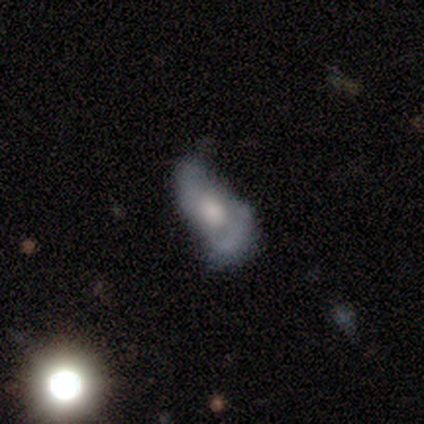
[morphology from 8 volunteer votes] Overall: featured or disk (62%; smooth 38%). Edge-on disk: no (100%). Bar: no (80%). Spiral arms: no (80%). Bulge size: moderate (60%; small 20%). Merging: none (62%; major disturbance 38%).